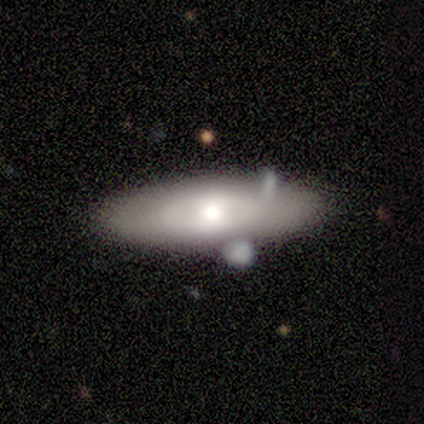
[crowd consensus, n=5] A smooth galaxy with no disk features (80%) that is cigar-shaped (75%).

Vote fractions:
- Smooth or featured? smooth: 80% / featured or disk: 20% / star or artifact: 0%
- How rounded? cigar-shaped: 75% / in between: 25% / round: 0%
- Merging? none: 60% / minor disturbance: 40% / major disturbance: 0% / merger: 0%